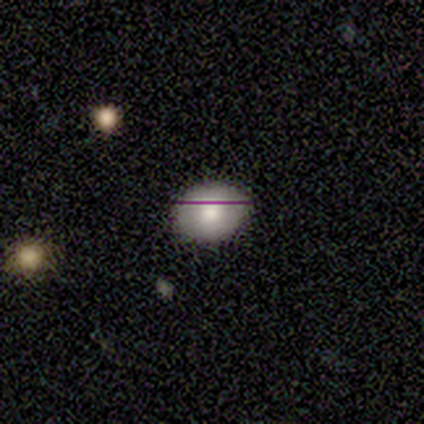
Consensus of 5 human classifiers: Volunteers were most divided on "how rounded": in between: 75%, round: 25%, cigar-shaped: 0%. More confident: merging — none (100%); smooth or featured — smooth (80%).